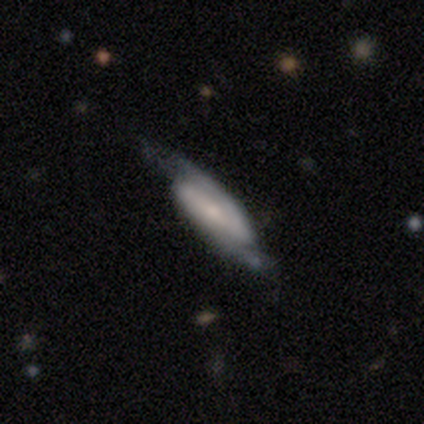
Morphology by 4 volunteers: A featured or disk galaxy (75%) with a weak bar (100%), 2 (100%) tight (100%) spiral arms (100%) and a small central bulge (100%).

Vote fractions:
- Smooth or featured? featured or disk: 75% / smooth: 25% / star or artifact: 0%
- Edge-on disk? no: 67% / yes: 33%
- Bar? weak: 100% / strong: 0% / no: 0%
- Spiral arms? yes: 100% / no: 0%
- Spiral winding? tight: 100% / medium: 0% / loose: 0%
- Spiral arm count? 2: 100% / 1: 0% / 3: 0% / 4: 0% / more than 4: 0% / can't tell: 0%
- Bulge size? small: 100% / dominant: 0% / large: 0% / moderate: 0% / none: 0%
- Merging? none: 50% / major disturbance: 25% / merger: 25% / minor disturbance: 0%